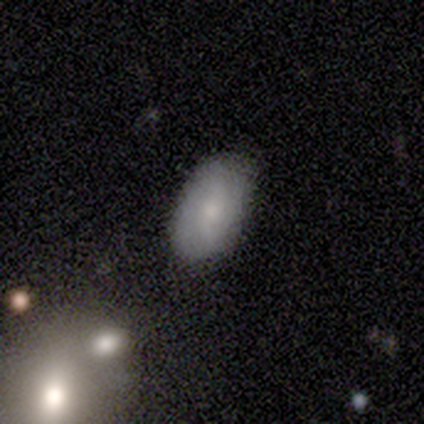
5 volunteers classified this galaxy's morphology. Q: Smooth or featured?
A: smooth (60%); runner-up: featured or disk (40%)
Q: How rounded?
A: in between (100%)
Q: Merging?
A: none (60%); runner-up: minor disturbance (40%)